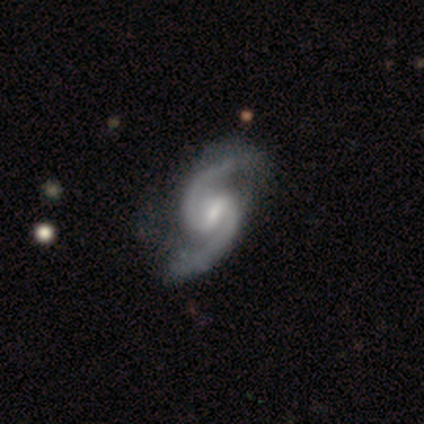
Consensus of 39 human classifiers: smooth-or-featured: featured or disk: 100% | smooth: 0% | star or artifact: 0%
  disk-edge-on: no: 97% | yes: 3%
    bar: weak: 68% | strong: 24% | no: 8%
    has-spiral-arms: yes: 100% | no: 0%
      spiral-winding: loose: 47% | medium: 39% | tight: 13%
      spiral-arm-count: 2: 97% | 1: 3% | 3: 0% | 4: 0% | more than 4: 0% | can't tell: 0%
    bulge-size: moderate: 47% | small: 42% | none: 11% | dominant: 0% | large: 0%
  merging: none: 44% | minor disturbance: 5% | major disturbance: 5% | merger: 0%